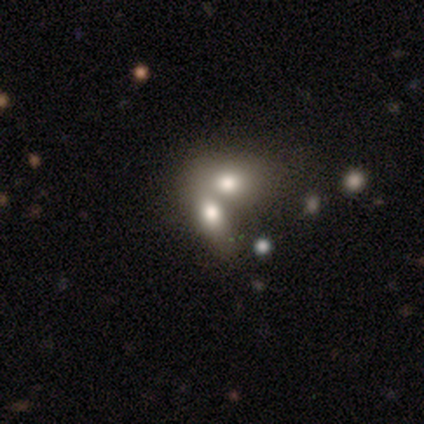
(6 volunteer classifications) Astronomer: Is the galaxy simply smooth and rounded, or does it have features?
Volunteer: smooth — 100%.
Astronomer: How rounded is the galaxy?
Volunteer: in between — 83%.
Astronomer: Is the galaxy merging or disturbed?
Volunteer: merger — 83%.